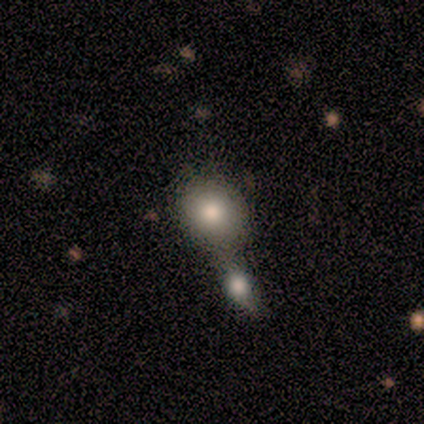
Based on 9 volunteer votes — Q: Smooth or featured?
A: smooth (100%)
Q: How rounded?
A: round (67%); runner-up: in between (33%)
Q: Merging?
A: merger (44%); runner-up: minor disturbance (33%)